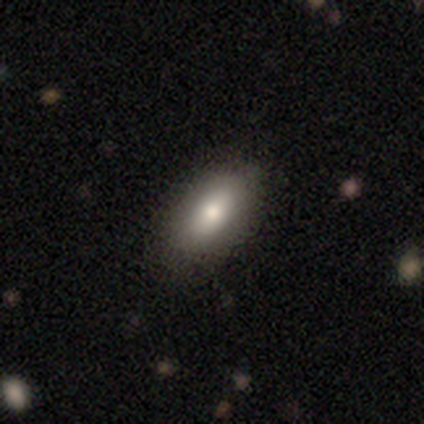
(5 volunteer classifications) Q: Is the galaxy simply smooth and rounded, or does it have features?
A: smooth — 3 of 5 (60%).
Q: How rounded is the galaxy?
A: in between — 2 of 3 (67%).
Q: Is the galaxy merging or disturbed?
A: none — 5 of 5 (100%).